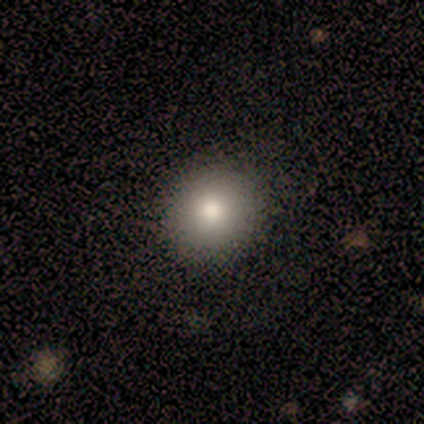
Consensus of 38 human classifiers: smooth-or-featured: smooth: 82% | featured or disk: 11% | star or artifact: 8%
  how-rounded: round: 94% | in between: 6% | cigar-shaped: 0%
  merging: none: 91% | minor disturbance: 6% | major disturbance: 3% | merger: 0%